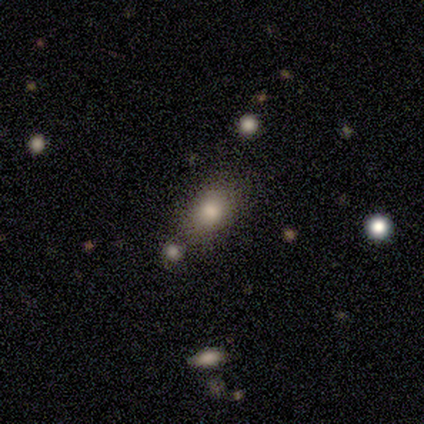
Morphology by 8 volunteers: Q: Smooth or featured?
A: smooth (75%); runner-up: star or artifact (25%)
Q: How rounded?
A: in between (67%); runner-up: round (33%)
Q: Merging?
A: none (83%); runner-up: minor disturbance (17%)